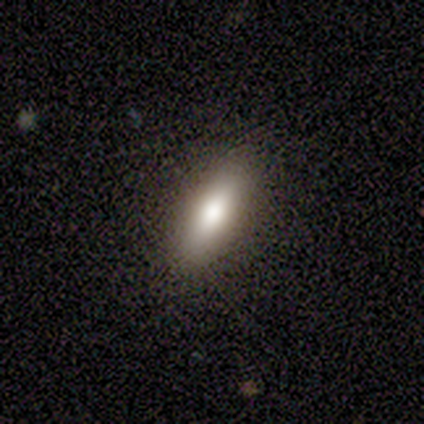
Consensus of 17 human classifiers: This is clearly a smooth galaxy (94%). How rounded: possibly in between (56%). Merging: clearly none (88%).